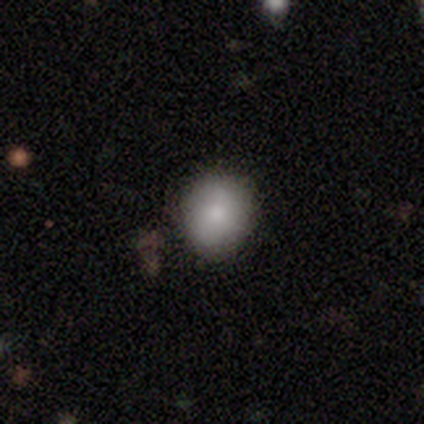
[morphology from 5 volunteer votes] Smooth or featured? smooth (100%)
How rounded? round (60%)
Merging? none (100%)